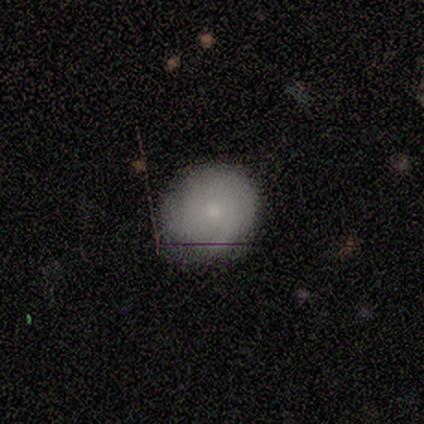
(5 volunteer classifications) Smooth or featured? smooth (100%)
How rounded? round (80%)
Merging? none (100%)